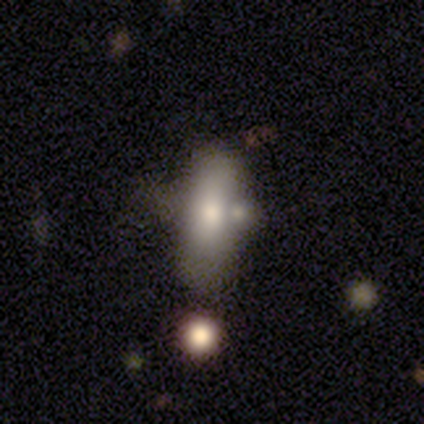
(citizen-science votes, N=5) Q: Smooth or featured?
A: featured or disk (60%); runner-up: smooth (40%)
Q: Edge-on disk?
A: no (67%); runner-up: yes (33%)
Q: Bar?
A: weak (50%); tied with: no (50%)
Q: Spiral arms?
A: no (100%)
Q: Bulge size?
A: large (50%); tied with: moderate (50%)
Q: Merging?
A: merger (80%); runner-up: none (20%)